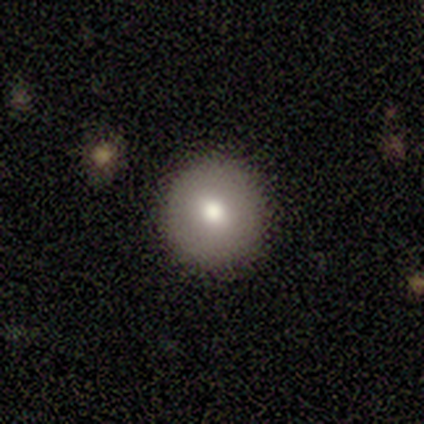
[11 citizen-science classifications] Morphology: type=smooth (82%); roundness=round (100%); merging=none (90%).